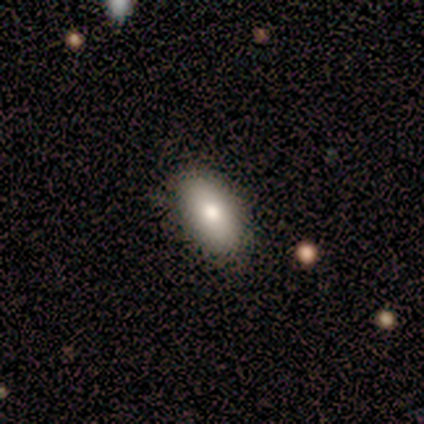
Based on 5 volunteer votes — Smooth or featured?
  - smooth: 100% *
  - featured or disk: 0%
  - star or artifact: 0%
How rounded?
  - in between: 100% *
  - round: 0%
  - cigar-shaped: 0%
Merging?
  - none: 100% *
  - minor disturbance: 0%
  - major disturbance: 0%
  - merger: 0%